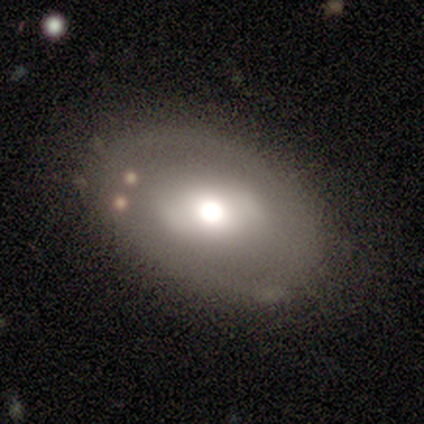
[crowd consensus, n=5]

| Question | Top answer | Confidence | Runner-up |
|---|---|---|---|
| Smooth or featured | featured or disk | 60% | smooth (40%) |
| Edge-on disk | no | 100% | — |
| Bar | strong | 67% | no (33%) |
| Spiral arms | yes | 67% | no (33%) |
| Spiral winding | tight | 50% | tied: medium (50%) |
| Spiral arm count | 1 | 50% | tied: 2 (50%) |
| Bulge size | dominant | 67% | large (33%) |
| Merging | none | 40% | tied: minor disturbance (40%) |